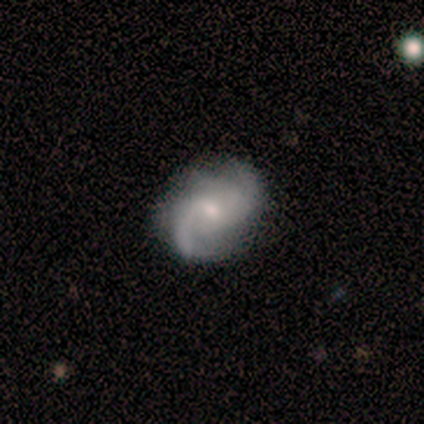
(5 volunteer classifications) This appears to be a featured or disk galaxy (80%) with a weak bar (50%, tied with no), 2 (75%) loose (50%) spiral arms (100%) and a moderate central bulge (50%, tied with small). Merging: none (80%).